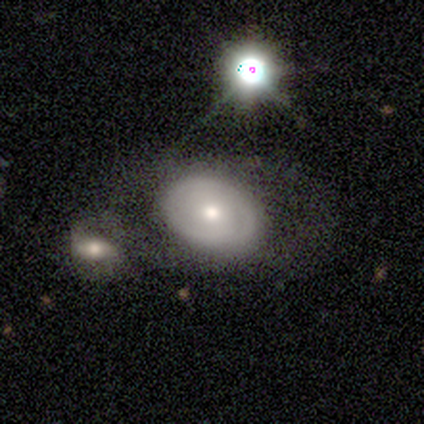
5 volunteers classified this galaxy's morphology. This is likely a featured or disk galaxy (60%). It is clearly not viewed edge-on (100%). Bar: likely no (67%). Spiral arm pattern: likely no (67%). Central bulge: clearly moderate (100%). Merging: likely none (60%).